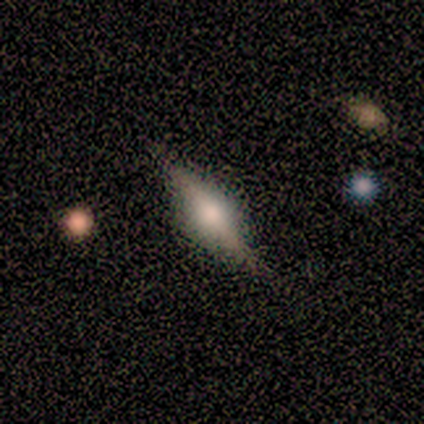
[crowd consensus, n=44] Smooth or featured? 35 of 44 (80%) said featured or disk. Edge-on disk? 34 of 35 (97%) said yes. Edge-on bulge? 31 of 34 (91%) said rounded. Merging? 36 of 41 (88%) said none.